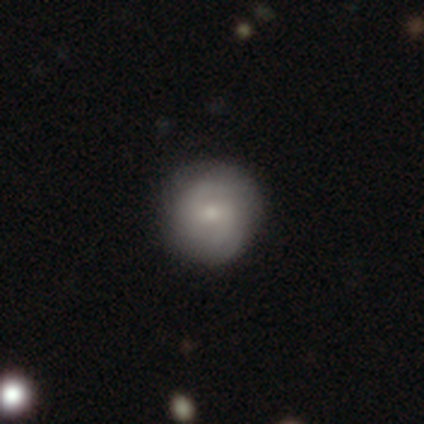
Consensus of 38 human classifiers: Smooth or featured? smooth (53%)
How rounded? round (90%)
Merging? none (89%)